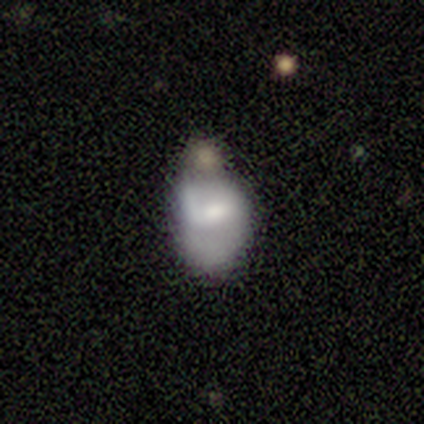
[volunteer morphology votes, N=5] featured or disk 80%, smooth 20%, star or artifact 0%. Down the decision tree: edge-on disk — no (100%); bar — weak (100%); spiral arms — yes (50%, tied with no); spiral arm count — 1 (50%, tied with can't tell); spiral winding — loose (100%); bulge size — moderate (50%, tied with small); merging — minor disturbance (80%).